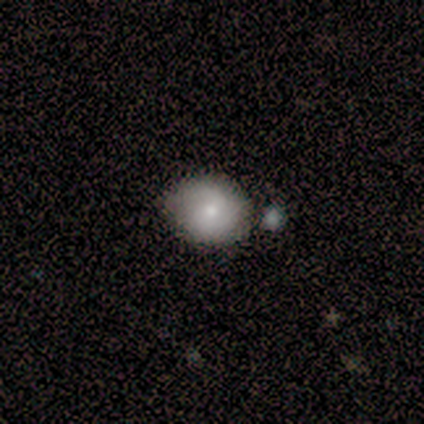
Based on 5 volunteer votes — Overall: smooth (60%; featured or disk 20%). How rounded: round (67%; in between 33%). Merging: none (75%).